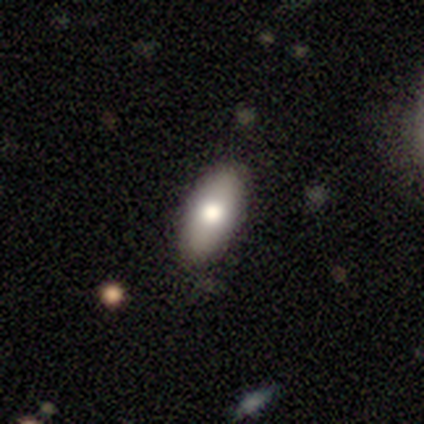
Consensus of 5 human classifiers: smooth-or-featured: smooth: 60% | featured or disk: 40% | star or artifact: 0%
  how-rounded: in between: 67% | cigar-shaped: 33% | round: 0%
  merging: none: 80% | major disturbance: 20% | minor disturbance: 0% | merger: 0%